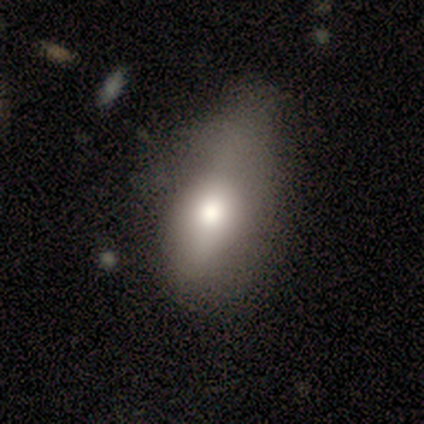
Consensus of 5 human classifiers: A smooth galaxy with no disk features (80%) that is in between round and cigar-shaped (75%). Merging: none (60%).